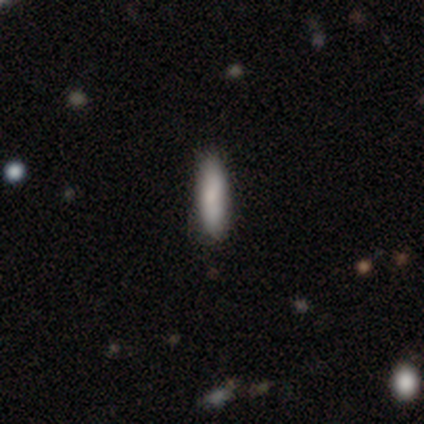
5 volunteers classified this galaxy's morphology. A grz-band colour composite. It shows a smooth galaxy with no disk features (100%) that is in between round and cigar-shaped (60%). Merging: none (100%).